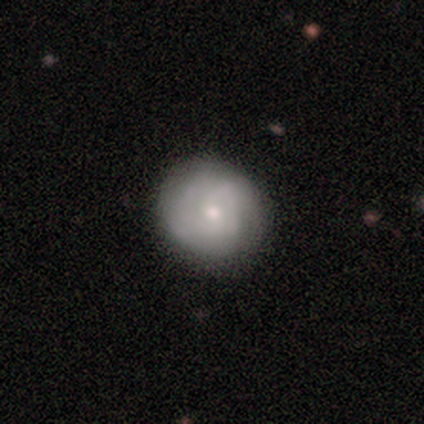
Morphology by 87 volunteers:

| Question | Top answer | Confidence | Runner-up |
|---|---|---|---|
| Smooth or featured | featured or disk | 46% | smooth (45%) |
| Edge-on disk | no | 100% | — |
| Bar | no | 72% | weak (28%) |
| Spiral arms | yes | 70% | no (30%) |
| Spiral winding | tight | 57% | medium (29%) |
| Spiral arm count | can't tell | 54% | 2 (36%) |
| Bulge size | small | 68% | moderate (30%) |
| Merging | none | 81% | minor disturbance (16%) |